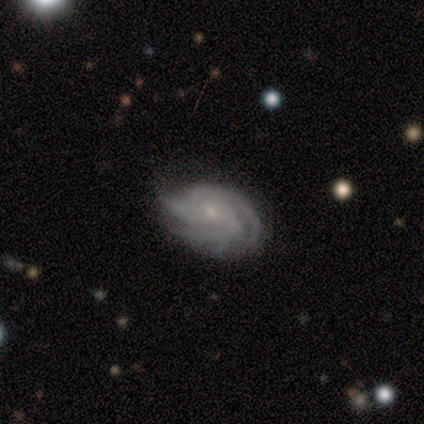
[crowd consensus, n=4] Smooth or featured? 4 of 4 (100%) said featured or disk. Edge-on disk? 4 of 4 (100%) said no. Bar? 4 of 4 (100%) said no. Spiral arms? 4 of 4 (100%) said yes. Spiral winding? 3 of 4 (75%) said tight. Spiral arm count? 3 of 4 (75%) said 3. Bulge size? 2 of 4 (50%, tied with small) said moderate. Merging? 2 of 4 (50%, tied with minor disturbance) said none.